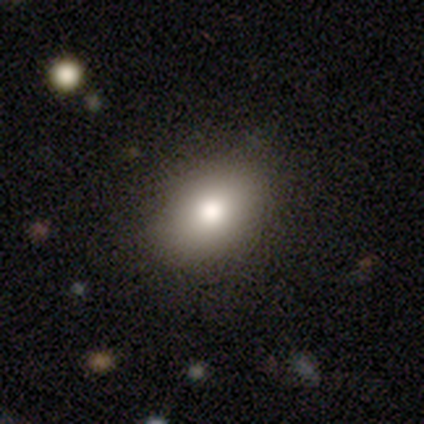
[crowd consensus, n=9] Smooth or featured: smooth — 78% (star or artifact — 22%)
How rounded: in between — 57% (round — 43%)
Merging: none — 100%